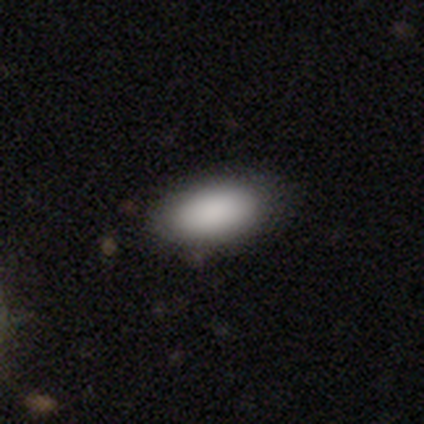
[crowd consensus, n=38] Overall: smooth (82%). How rounded: in between (94%). Merging: none (69%).